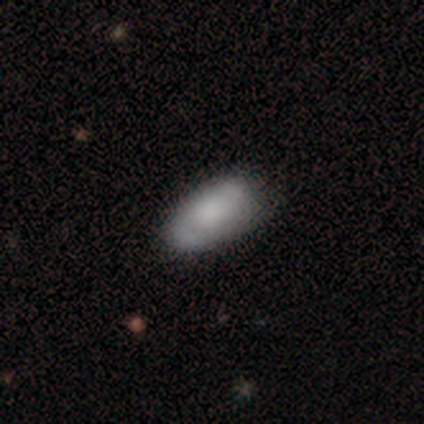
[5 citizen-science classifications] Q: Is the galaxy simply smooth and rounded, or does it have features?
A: smooth — 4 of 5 (80%).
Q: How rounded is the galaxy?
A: in between — 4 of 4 (100%).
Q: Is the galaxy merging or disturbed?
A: none — 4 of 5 (80%).